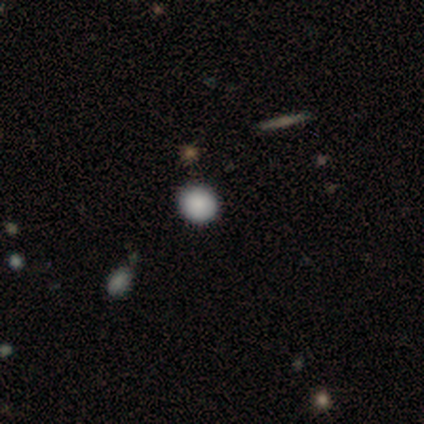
Morphology: type=smooth (80%); roundness=round (100%); merging=none (100%).